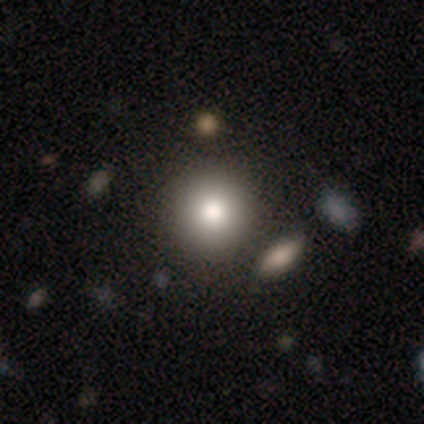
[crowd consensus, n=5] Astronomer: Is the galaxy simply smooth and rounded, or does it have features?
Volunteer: smooth — 80%.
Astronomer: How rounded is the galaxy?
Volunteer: round — 100%.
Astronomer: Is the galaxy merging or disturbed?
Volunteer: none — 100%.